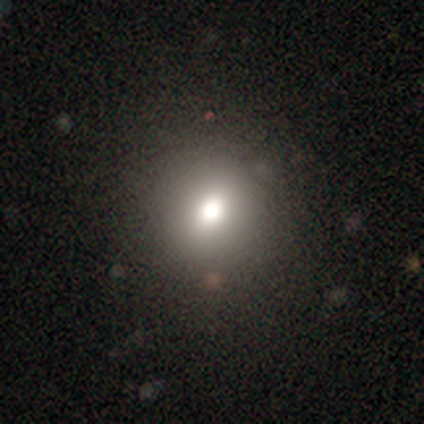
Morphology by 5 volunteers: Volunteers were most divided on "smooth or featured": smooth: 60%, star or artifact: 40%, featured or disk: 0%. More confident: merging — none (100%); how rounded — round (67%).